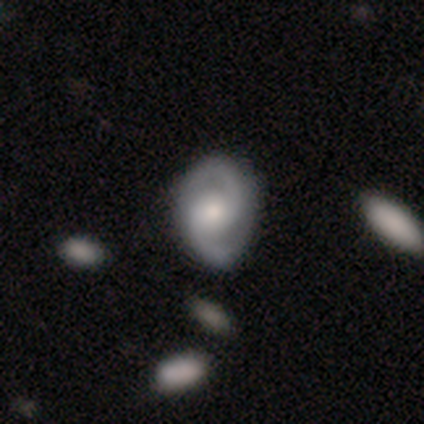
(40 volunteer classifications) A featured or disk galaxy (82%) with no bar (68%), 2 (100%) medium (71%) spiral arms (100%) and a moderate central bulge (48%). Merging: none (50%).